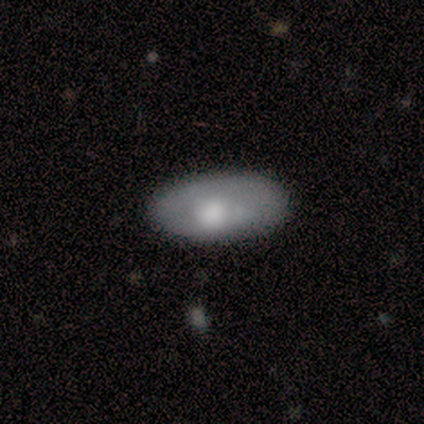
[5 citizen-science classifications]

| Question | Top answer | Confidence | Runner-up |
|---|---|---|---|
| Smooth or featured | smooth | 60% | featured or disk (40%) |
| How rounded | in between | 100% | — |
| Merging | none | 100% | — |